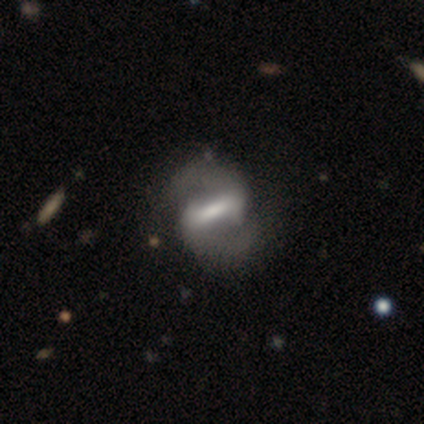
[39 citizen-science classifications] This appears to be a featured or disk galaxy (95%) with a strong bar (86%), 2 (100%) medium (62%) spiral arms (91%) and a moderate central bulge (37%). Merging: none (56%).